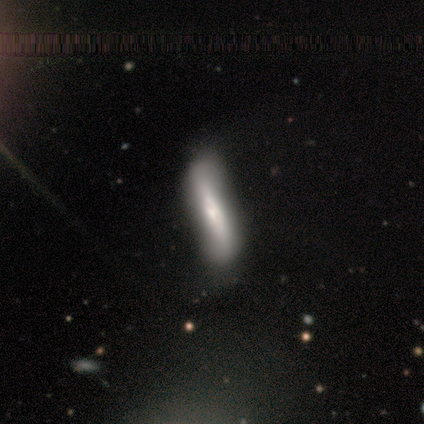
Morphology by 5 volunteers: smooth_or_featured: featured or disk (p=0.60) [alt: smooth p=0.40]
disk_edge_on: yes (p=1.00)
edge_on_bulge: rounded (p=0.67) [alt: boxy p=0.33]
merging: none (p=0.60) [alt: minor disturbance p=0.40]